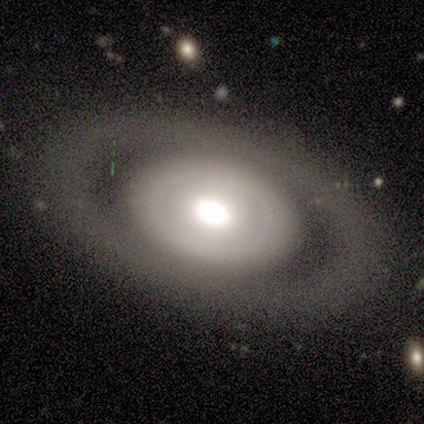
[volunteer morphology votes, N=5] This appears to be a smooth galaxy with no disk features (60%) that is in between round and cigar-shaped (100%). Merging: none (80%).